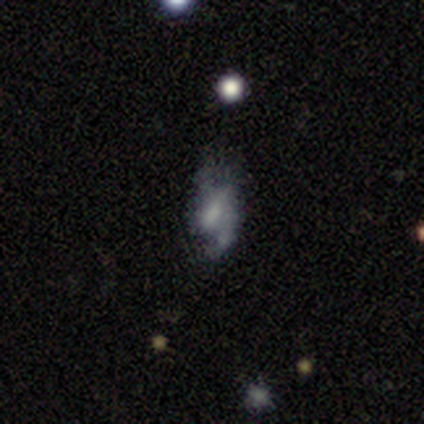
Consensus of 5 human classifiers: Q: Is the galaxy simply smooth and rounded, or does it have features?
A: featured or disk — 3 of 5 (60%).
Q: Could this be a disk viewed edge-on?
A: no — 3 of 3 (100%).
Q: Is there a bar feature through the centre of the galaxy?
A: no — 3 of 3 (100%).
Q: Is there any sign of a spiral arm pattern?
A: no — 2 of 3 (67%).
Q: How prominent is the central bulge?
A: large — 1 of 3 (33%, tied with small and none).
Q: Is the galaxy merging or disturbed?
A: major disturbance — 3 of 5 (60%).